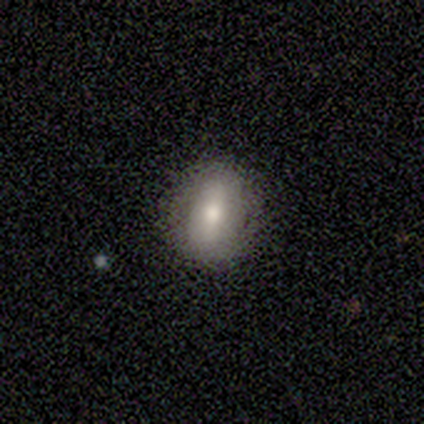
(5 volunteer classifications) smooth-or-featured: smooth: 60% | featured or disk: 40% | star or artifact: 0%
  how-rounded: in between: 100% | round: 0% | cigar-shaped: 0%
  merging: none: 80% | minor disturbance: 20% | major disturbance: 0% | merger: 0%